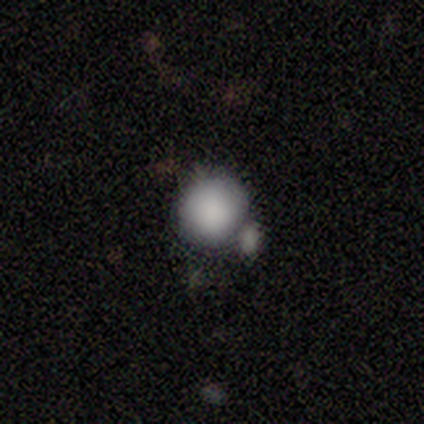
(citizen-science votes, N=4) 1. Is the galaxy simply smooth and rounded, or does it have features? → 100% smooth, 0% featured or disk, 0% star or artifact.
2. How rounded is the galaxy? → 100% round, 0% in between, 0% cigar-shaped.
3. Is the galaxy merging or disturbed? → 75% none, 25% minor disturbance, 0% major disturbance, 0% merger.